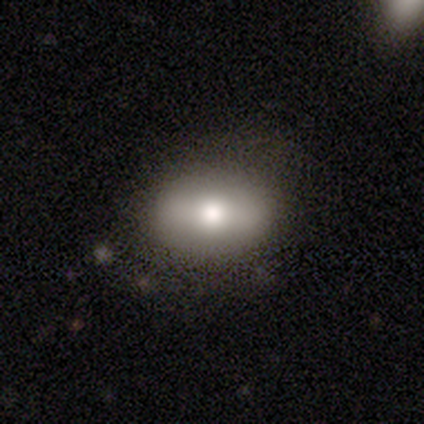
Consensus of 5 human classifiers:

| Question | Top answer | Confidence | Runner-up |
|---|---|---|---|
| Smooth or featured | smooth | 80% | featured or disk (20%) |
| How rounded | in between | 100% | — |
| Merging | none | 80% | minor disturbance (20%) |